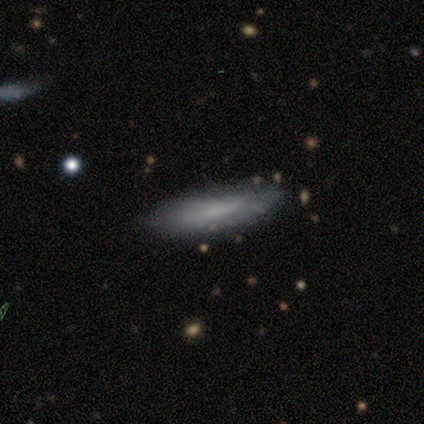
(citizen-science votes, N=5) A smooth galaxy with no disk features (80%) that is in between round and cigar-shaped (50%, tied with cigar-shaped).

Vote fractions:
- Smooth or featured? smooth: 80% / star or artifact: 20% / featured or disk: 0%
- How rounded? in between: 50% (tied) / cigar-shaped: 50% (tied) / round: 0%
- Merging? none: 50% (tied) / minor disturbance: 50% (tied) / major disturbance: 0% / merger: 0%